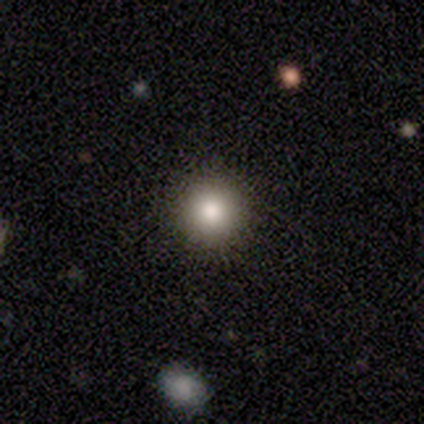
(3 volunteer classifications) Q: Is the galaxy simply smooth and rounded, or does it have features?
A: smooth — 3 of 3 (100%).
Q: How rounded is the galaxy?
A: round — 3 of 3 (100%).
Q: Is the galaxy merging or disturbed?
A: none — 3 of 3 (100%).